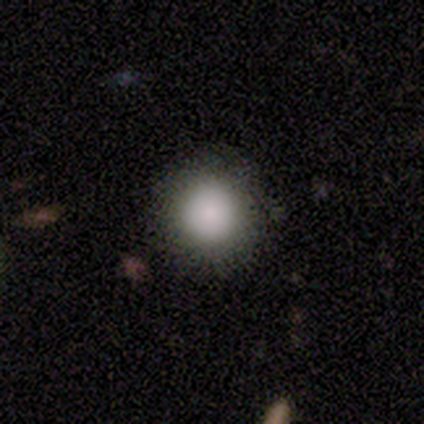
A smooth galaxy with no disk features (78%) that is round (97%).

Vote fractions:
- Smooth or featured? smooth: 78% / featured or disk: 12% / star or artifact: 10%
- How rounded? round: 97% / in between: 3% / cigar-shaped: 0%
- Merging? none: 89% / minor disturbance: 8% / major disturbance: 3% / merger: 0%